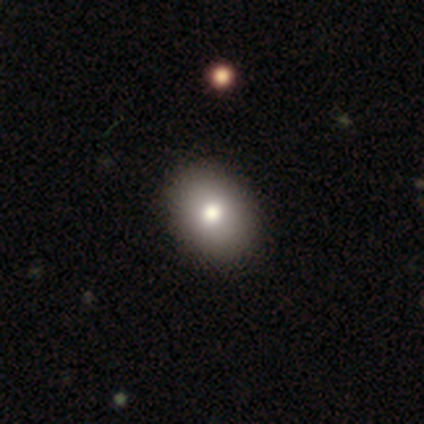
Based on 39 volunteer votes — Smooth or featured? smooth (77%)
How rounded? in between (73%)
Merging? none (58%)